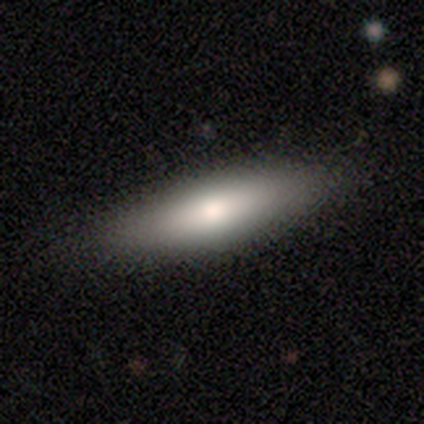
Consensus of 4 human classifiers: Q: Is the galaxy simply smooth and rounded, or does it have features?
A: smooth — 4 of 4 (100%).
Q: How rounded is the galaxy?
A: in between — 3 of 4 (75%).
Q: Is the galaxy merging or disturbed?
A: none — 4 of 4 (100%).